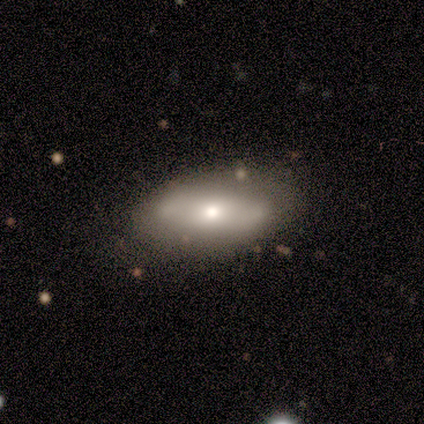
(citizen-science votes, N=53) This appears to be a smooth galaxy with no disk features (51%) that is in between round and cigar-shaped (96%). Merging: none (70%).